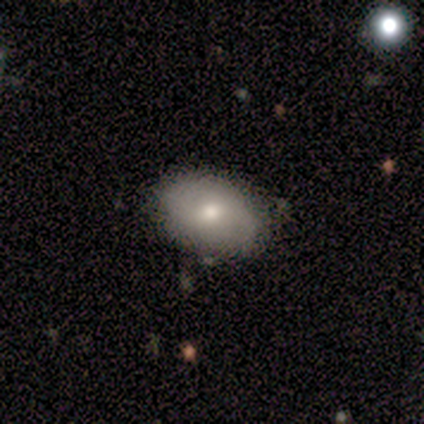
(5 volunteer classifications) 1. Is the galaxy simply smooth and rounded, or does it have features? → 80% smooth, 20% featured or disk, 0% star or artifact.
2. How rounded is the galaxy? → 100% in between, 0% round, 0% cigar-shaped.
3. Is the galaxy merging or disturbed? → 100% none, 0% minor disturbance, 0% major disturbance, 0% merger.